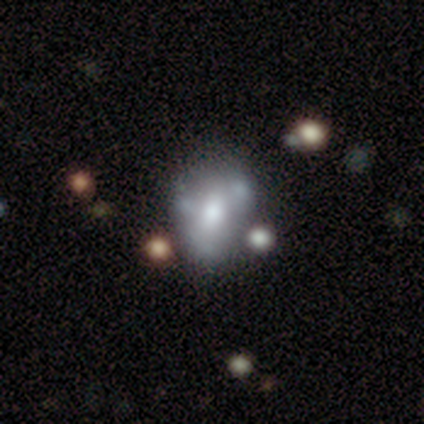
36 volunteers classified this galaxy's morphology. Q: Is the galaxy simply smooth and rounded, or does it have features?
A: featured or disk — 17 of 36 (47%).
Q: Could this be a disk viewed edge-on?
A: no — 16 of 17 (94%).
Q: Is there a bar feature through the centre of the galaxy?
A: no — 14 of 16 (88%).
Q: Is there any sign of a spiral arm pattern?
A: no — 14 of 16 (88%).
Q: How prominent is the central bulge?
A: moderate — 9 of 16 (56%).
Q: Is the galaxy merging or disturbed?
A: none — 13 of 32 (41%).